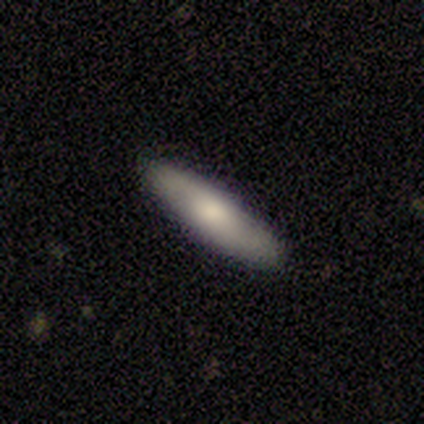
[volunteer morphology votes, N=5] Overall: smooth (60%; featured or disk 40%). How rounded: cigar-shaped (67%; in between 33%). Merging: none (100%).